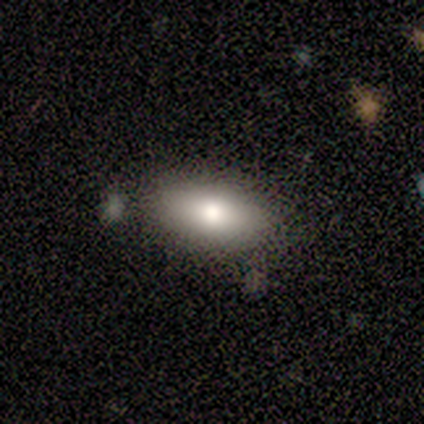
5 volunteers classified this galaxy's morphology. Q: Smooth or featured?
A: smooth (80%); runner-up: featured or disk (20%)
Q: How rounded?
A: in between (75%); runner-up: cigar-shaped (25%)
Q: Merging?
A: none (100%)